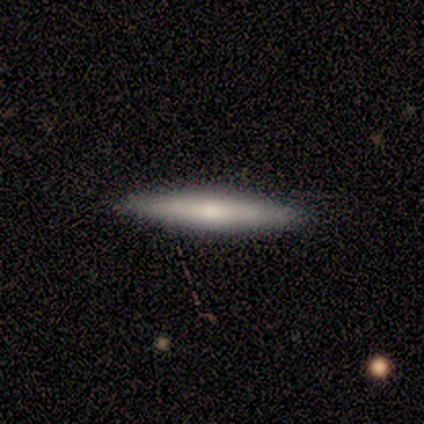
Smooth or featured? 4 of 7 (57%) said featured or disk. Edge-on disk? 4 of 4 (100%) said yes. Edge-on bulge? 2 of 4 (50%, tied with rounded) said none. Merging? 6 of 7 (86%) said none.